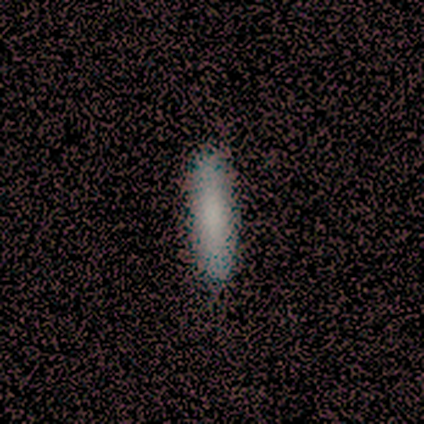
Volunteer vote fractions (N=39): This is clearly a smooth galaxy (87%). How rounded: clearly cigar-shaped (88%). Merging: likely none (78%).